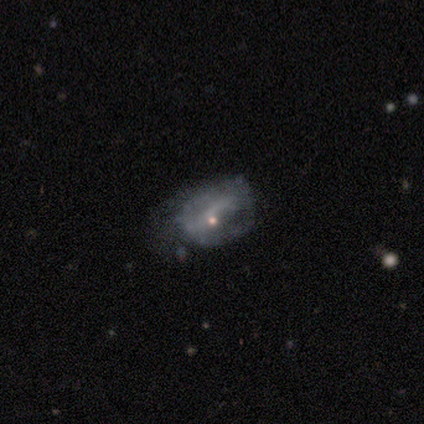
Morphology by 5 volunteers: Overall: featured or disk (60%; smooth 40%). Edge-on disk: no (100%). Bar: no (67%; weak 33%). Spiral arms: no (100%). Bulge size: small (67%; none 33%). Merging: minor disturbance (80%).